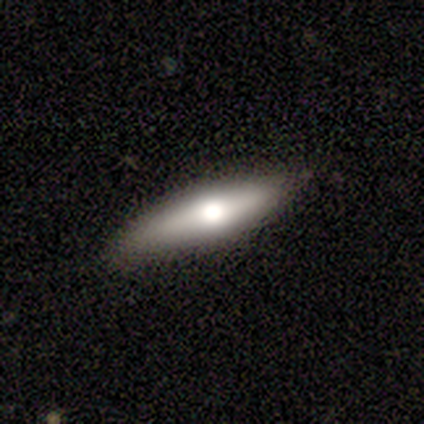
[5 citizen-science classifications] This is clearly a featured or disk galaxy (80%). It is likely viewed edge-on (75%). Edge-on bulge: clearly rounded (100%). Merging: clearly none (80%).